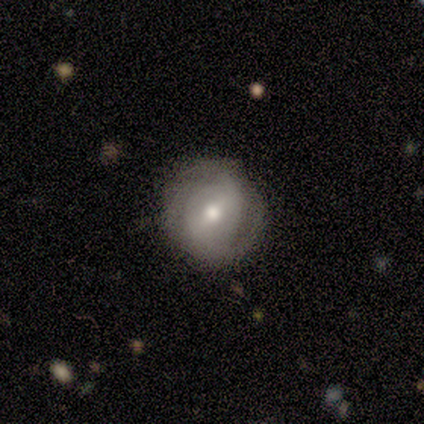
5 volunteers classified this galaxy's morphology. Q: Smooth or featured?
A: featured or disk (80%); runner-up: smooth (20%)
Q: Edge-on disk?
A: no (100%)
Q: Bar?
A: strong (50%); tied with: weak (50%)
Q: Spiral arms?
A: yes (50%); tied with: no (50%)
Q: Spiral winding?
A: medium (100%)
Q: Spiral arm count?
A: can't tell (100%)
Q: Bulge size?
A: moderate (75%); runner-up: small (25%)
Q: Merging?
A: none (60%); runner-up: minor disturbance (40%)